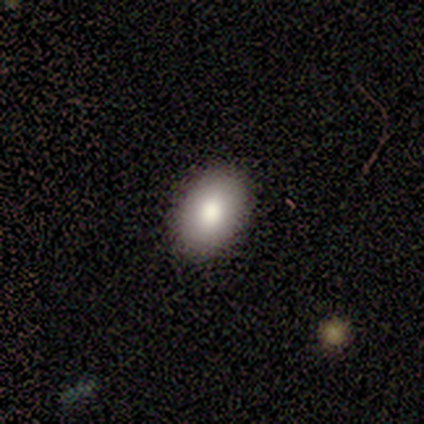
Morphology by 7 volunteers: Q: Smooth or featured?
A: smooth (100%)
Q: How rounded?
A: in between (100%)
Q: Merging?
A: none (86%); runner-up: major disturbance (14%)